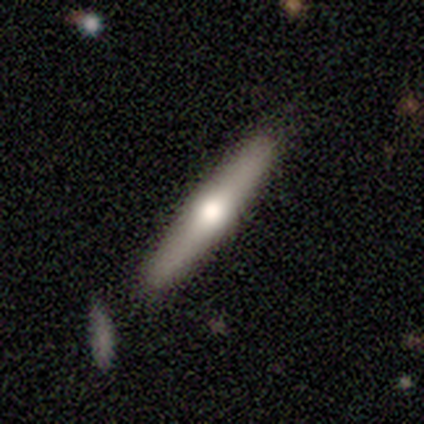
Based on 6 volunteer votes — Smooth or featured? 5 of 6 (83%) said featured or disk. Edge-on disk? 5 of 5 (100%) said yes. Edge-on bulge? 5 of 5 (100%) said rounded. Merging? 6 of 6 (100%) said none.